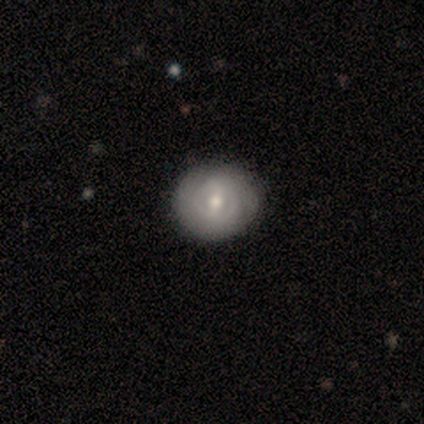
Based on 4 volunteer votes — Smooth or featured?
  - featured or disk: 75% *
  - smooth: 25%
  - star or artifact: 0%
Edge-on disk?
  - no: 100% *
  - yes: 0%
Bar?
  - weak: 67% *
  - strong: 33%
  - no: 0%
Spiral arms?
  - yes: 67% *
  - no: 33%
Spiral winding?
  - tight: 50% * (tied)
  - medium: 50% * (tied)
  - loose: 0%
Spiral arm count?
  - 2: 50% * (tied)
  - can't tell: 50% * (tied)
  - 1: 0%
  - 3: 0%
  - 4: 0%
  - more than 4: 0%
Bulge size?
  - moderate: 100% *
  - dominant: 0%
  - large: 0%
  - small: 0%
  - none: 0%
Merging?
  - none: 75% *
  - minor disturbance: 25%
  - major disturbance: 0%
  - merger: 0%